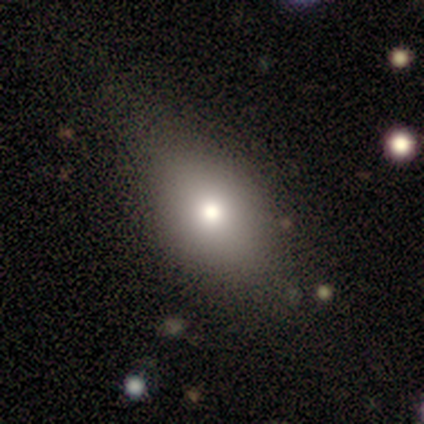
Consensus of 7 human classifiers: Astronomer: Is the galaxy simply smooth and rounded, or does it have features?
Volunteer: smooth — 57%.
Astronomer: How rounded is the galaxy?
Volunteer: round — 50%, tied with in between at 50%.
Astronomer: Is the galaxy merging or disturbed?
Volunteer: none — 33%, tied with minor disturbance and major disturbance at 33%.